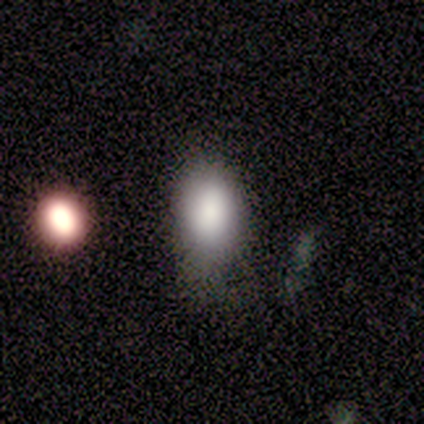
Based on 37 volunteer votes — A smooth galaxy with no disk features (86%) that is in between round and cigar-shaped (91%).

Vote fractions:
- Smooth or featured? smooth: 86% / featured or disk: 8% / star or artifact: 5%
- How rounded? in between: 91% / round: 6% / cigar-shaped: 3%
- Merging? none: 51% / major disturbance: 26% / minor disturbance: 17% / merger: 6%